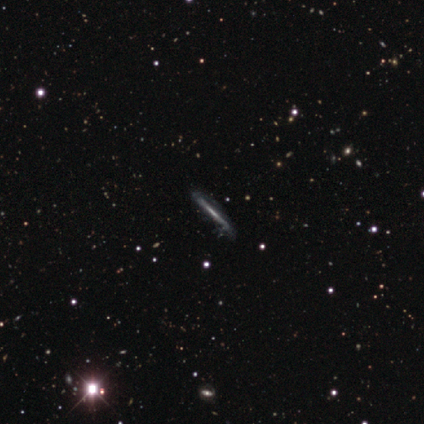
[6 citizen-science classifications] Morphology: type=featured or disk (100%); edge-on=yes (100%); edge-on bulge=none (67%); merging=none (83%).